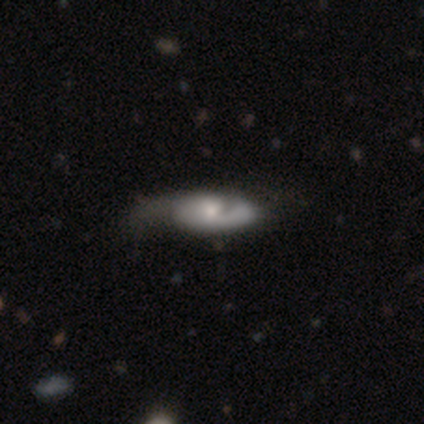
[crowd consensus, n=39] This appears to be a featured or disk galaxy (82%) with no bar (74%), 2 (48%) tight (44%) spiral arms (81%) and a moderate central bulge (42%). Merging: none (29%).